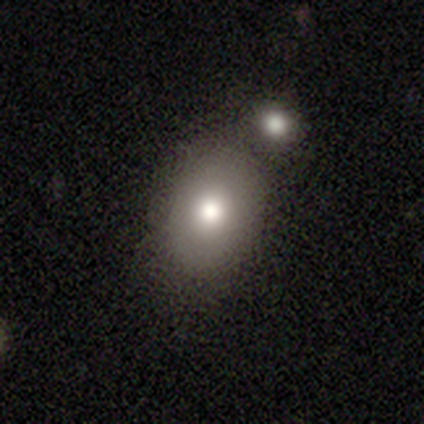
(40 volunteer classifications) Smooth or featured? smooth (85%)
How rounded? in between (71%)
Merging? none (57%)